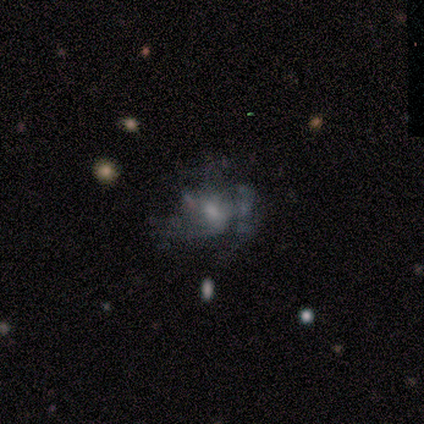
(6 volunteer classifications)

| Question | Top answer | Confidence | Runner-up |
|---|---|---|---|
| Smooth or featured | smooth | 67% | featured or disk (33%) |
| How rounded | in between | 75% | round (25%) |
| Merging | minor disturbance | 83% | major disturbance (17%) |